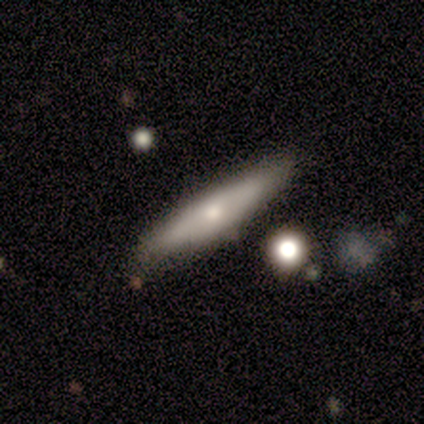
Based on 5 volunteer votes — Smooth or featured: smooth — 40% (tied with featured or disk — 40%)
How rounded: cigar-shaped — 100%
Merging: none — 75% (minor disturbance — 25%)